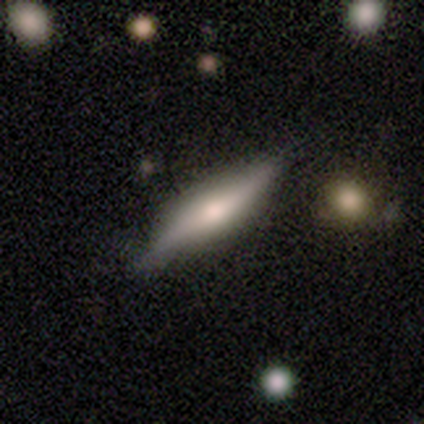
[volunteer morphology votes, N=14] smooth_or_featured: featured or disk (p=0.57) [alt: smooth p=0.43]
disk_edge_on: yes (p=1.00)
edge_on_bulge: rounded (p=0.75) [alt: boxy p=0.12]
merging: none (p=0.93) [alt: minor disturbance p=0.07]